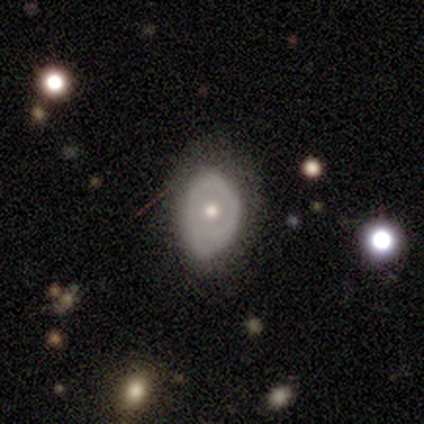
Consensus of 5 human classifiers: Smooth or featured?
  - featured or disk: 60% *
  - smooth: 40%
  - star or artifact: 0%
Edge-on disk?
  - no: 100% *
  - yes: 0%
Bar?
  - no: 67% *
  - weak: 33%
  - strong: 0%
Spiral arms?
  - no: 100% *
  - yes: 0%
Bulge size?
  - moderate: 67% *
  - small: 33%
  - dominant: 0%
  - large: 0%
  - none: 0%
Merging?
  - minor disturbance: 60% *
  - none: 20%
  - major disturbance: 20%
  - merger: 0%